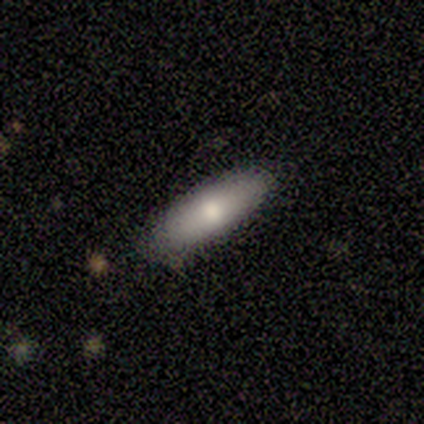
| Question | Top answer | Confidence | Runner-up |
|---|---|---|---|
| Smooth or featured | smooth | 62% | featured or disk (25%) |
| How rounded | in between | 100% | — |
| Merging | none | 100% | — |